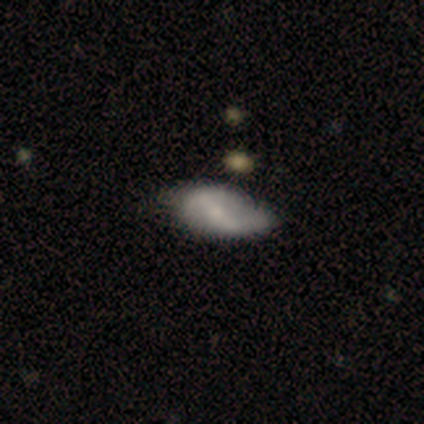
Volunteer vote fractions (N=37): This appears to be a featured or disk galaxy (54%) with a weak bar (50%), no spiral arms (56%) and a small central bulge (56%). Merging: none (64%).